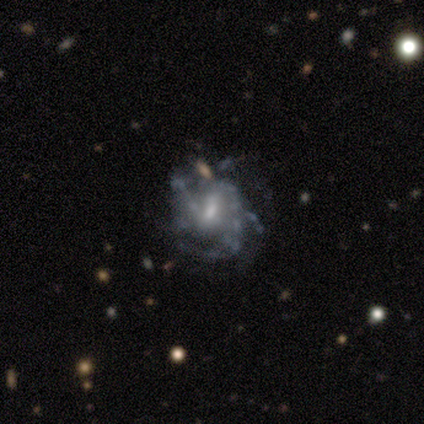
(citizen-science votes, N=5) smooth_or_featured: featured or disk (p=0.80) [alt: smooth p=0.20]
disk_edge_on: no (p=1.00)
bar: weak (p=0.75) [alt: no p=0.25]
has_spiral_arms: yes (p=0.75) [alt: no p=0.25]
spiral_winding: medium (p=0.67) [alt: loose p=0.33]
spiral_arm_count: can't tell (p=0.67) [alt: 2 p=0.33]
bulge_size: small (p=1.00)
merging: none (p=0.40) [tied with: major disturbance p=0.40]